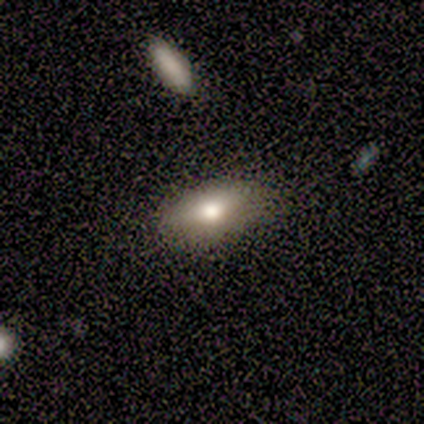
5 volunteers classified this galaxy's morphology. smooth 100%, featured or disk 0%, star or artifact 0%. Down the decision tree: how rounded — in between (100%); merging — none (100%).